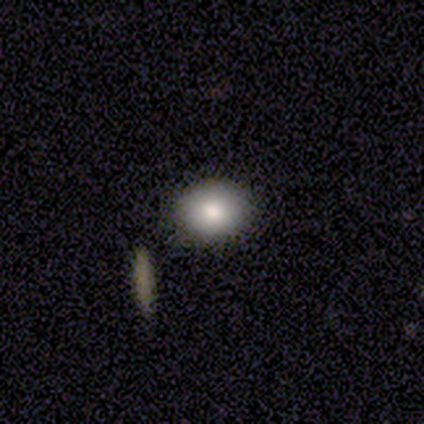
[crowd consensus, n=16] smooth-or-featured: smooth: 81% | featured or disk: 12% | star or artifact: 6%
  how-rounded: in between: 54% | round: 46% | cigar-shaped: 0%
  merging: none: 93% | minor disturbance: 7% | major disturbance: 0% | merger: 0%